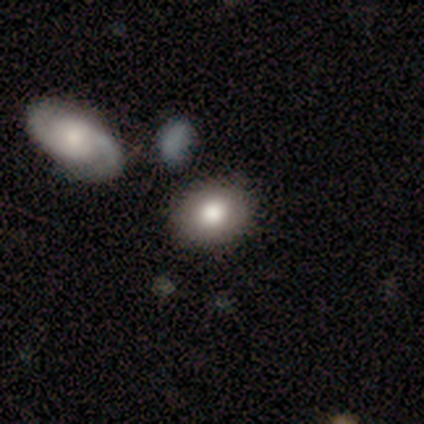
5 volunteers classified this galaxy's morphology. smooth-or-featured: smooth: 80% | featured or disk: 20% | star or artifact: 0%
  how-rounded: in between: 75% | round: 25% | cigar-shaped: 0%
  merging: none: 60% | minor disturbance: 20% | merger: 20% | major disturbance: 0%